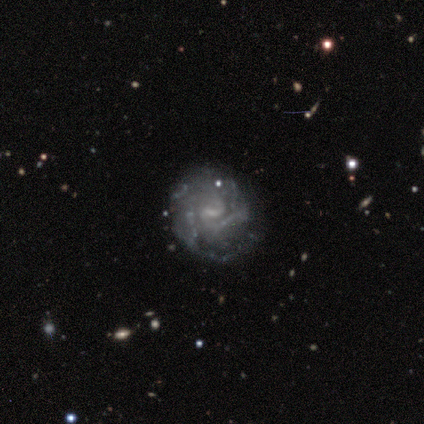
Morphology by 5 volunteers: Smooth or featured?
  - featured or disk: 80% *
  - star or artifact: 20%
  - smooth: 0%
Edge-on disk?
  - no: 100% *
  - yes: 0%
Bar?
  - no: 75% *
  - weak: 25%
  - strong: 0%
Spiral arms?
  - yes: 75% *
  - no: 25%
Spiral winding?
  - tight: 67% *
  - loose: 33%
  - medium: 0%
Spiral arm count?
  - 2: 33% * (tied)
  - 3: 33% * (tied)
  - 4: 33% * (tied)
  - 1: 0%
  - more than 4: 0%
  - can't tell: 0%
Bulge size?
  - small: 50% * (tied)
  - none: 50% * (tied)
  - dominant: 0%
  - large: 0%
  - moderate: 0%
Merging?
  - none: 100% *
  - minor disturbance: 0%
  - major disturbance: 0%
  - merger: 0%